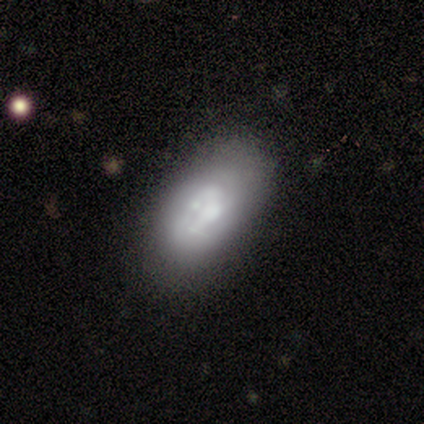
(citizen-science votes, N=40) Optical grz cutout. It shows a smooth galaxy with no disk features (52%) that is in between round and cigar-shaped (86%). Merging: none (63%).